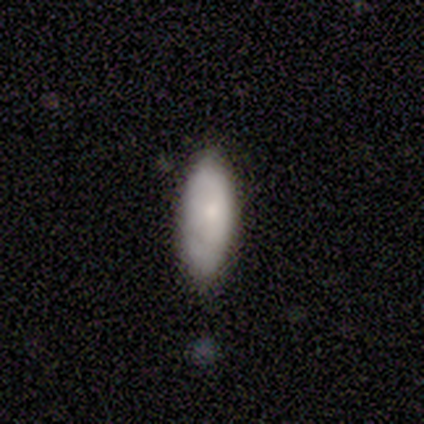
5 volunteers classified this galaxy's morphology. A smooth galaxy with no disk features (100%) that is in between round and cigar-shaped (100%).

Vote fractions:
- Smooth or featured? smooth: 100% / featured or disk: 0% / star or artifact: 0%
- How rounded? in between: 100% / round: 0% / cigar-shaped: 0%
- Merging? none: 60% / minor disturbance: 40% / major disturbance: 0% / merger: 0%